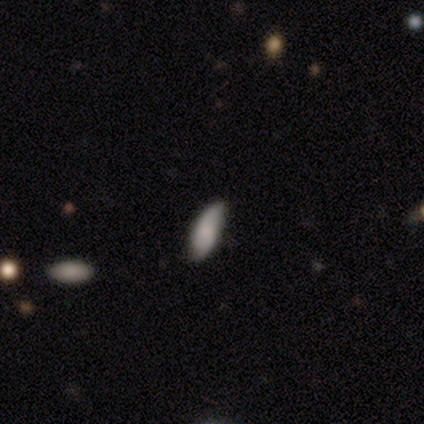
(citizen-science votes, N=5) Volunteers were most divided on "smooth or featured": smooth: 80%, featured or disk: 20%, star or artifact: 0%. More confident: how rounded — in between (100%); merging — none (80%).